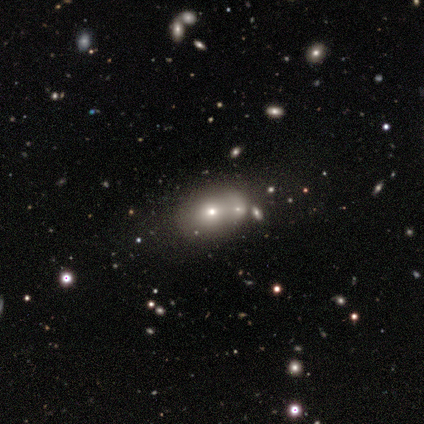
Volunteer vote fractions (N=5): Overall: smooth (100%). How rounded: in between (80%). Merging: none (80%).